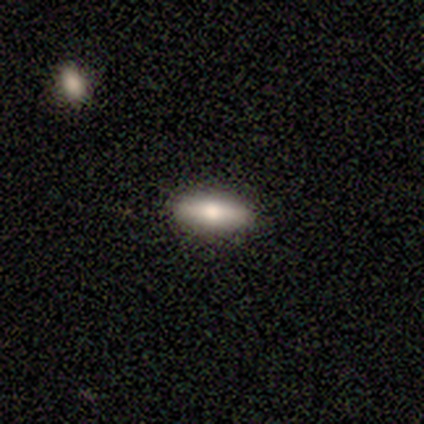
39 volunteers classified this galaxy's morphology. Q: Smooth or featured?
A: smooth (64%); runner-up: featured or disk (26%)
Q: How rounded?
A: in between (68%); runner-up: cigar-shaped (32%)
Q: Merging?
A: none (89%); runner-up: minor disturbance (9%)